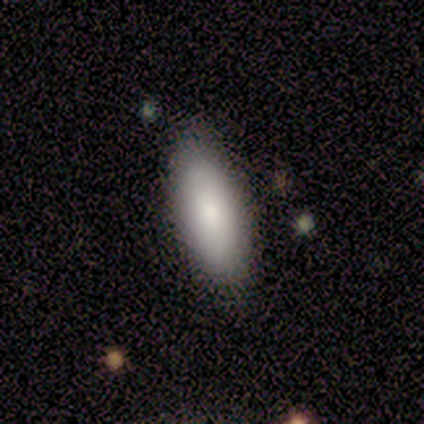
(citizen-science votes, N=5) Smooth or featured?
  - smooth: 100% *
  - featured or disk: 0%
  - star or artifact: 0%
How rounded?
  - in between: 100% *
  - round: 0%
  - cigar-shaped: 0%
Merging?
  - none: 100% *
  - minor disturbance: 0%
  - major disturbance: 0%
  - merger: 0%